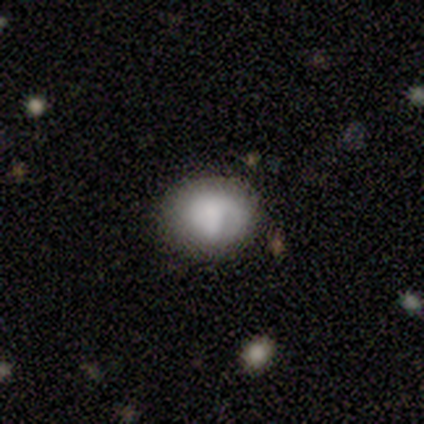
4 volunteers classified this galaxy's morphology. Q: Smooth or featured?
A: smooth (100%)
Q: How rounded?
A: round (50%); tied with: in between (50%)
Q: Merging?
A: none (50%); tied with: minor disturbance (50%)